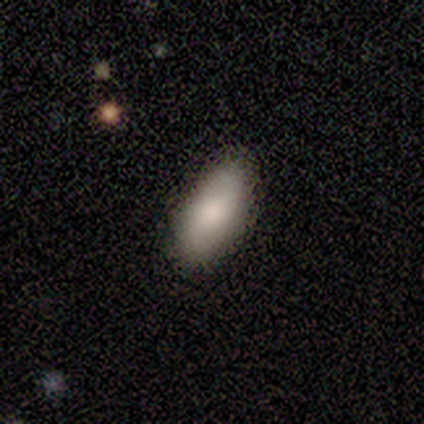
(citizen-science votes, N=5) Q: Smooth or featured?
A: smooth (100%)
Q: How rounded?
A: in between (100%)
Q: Merging?
A: none (80%); runner-up: minor disturbance (20%)